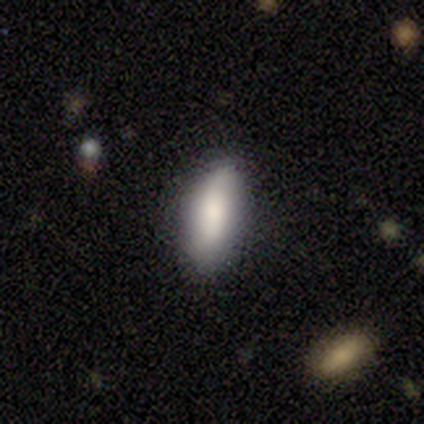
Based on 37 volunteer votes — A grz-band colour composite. It shows a smooth galaxy with no disk features (78%) that is in between round and cigar-shaped (79%). Merging: none (75%).